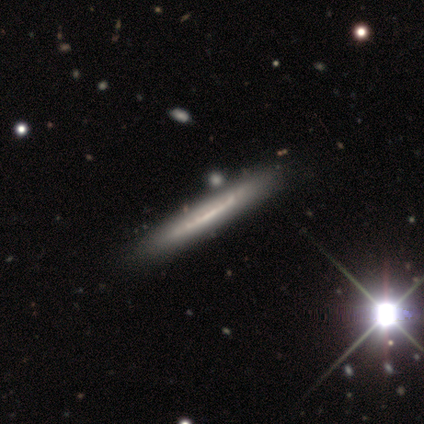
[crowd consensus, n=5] This appears to be a featured or disk galaxy (80%) viewed edge-on (100%) with no central bulge (75%). Merging: none (60%).